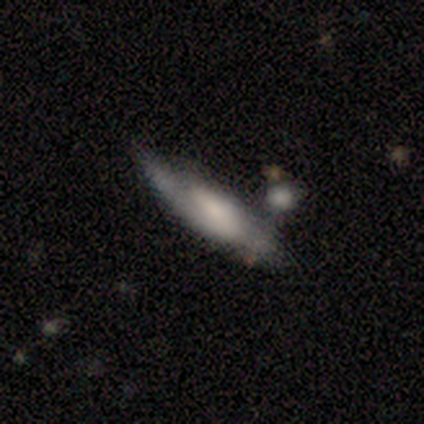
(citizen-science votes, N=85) A featured or disk galaxy (56%) viewed edge-on (52%) with a rounded central bulge (52%). Merging: none (51%).